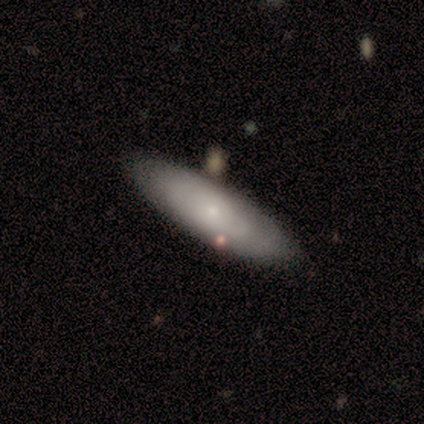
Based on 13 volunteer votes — Q: Smooth or featured?
A: smooth (62%); runner-up: featured or disk (38%)
Q: How rounded?
A: in between (88%); runner-up: cigar-shaped (12%)
Q: Merging?
A: none (69%); runner-up: minor disturbance (31%)